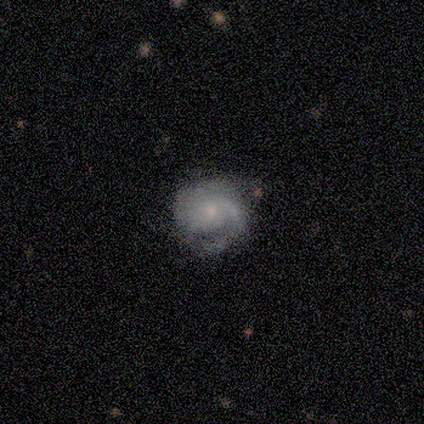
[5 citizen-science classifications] Morphology: type=featured or disk (60%); edge-on=no (100%); bar=no (67%); spiral arms=yes (100%); winding=tight (67%); arm count=2 (33%, tied with 3 and can't tell); bulge=small (100%); merging=none (80%).